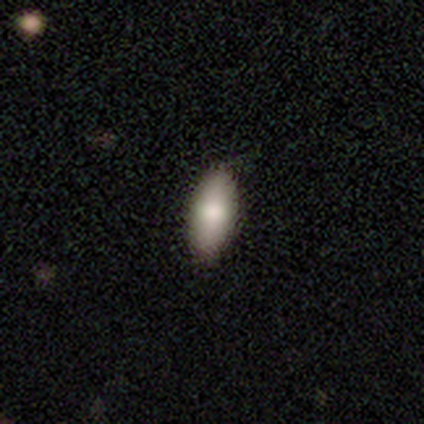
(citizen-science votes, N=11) Overall: smooth (73%). How rounded: in between (88%). Merging: none (100%).